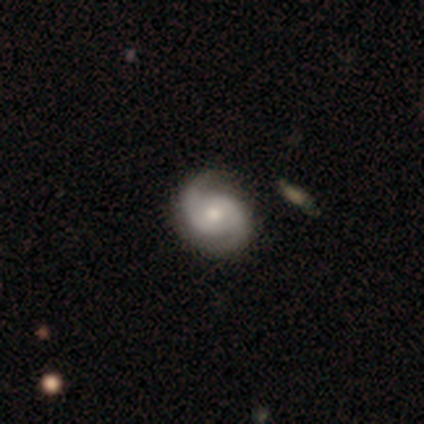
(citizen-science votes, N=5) A featured or disk galaxy (100%) with no bar (75%), 2 (75%) medium (100%) spiral arms (100%) and a moderate central bulge (50%, tied with small).

Vote fractions:
- Smooth or featured? featured or disk: 100% / smooth: 0% / star or artifact: 0%
- Edge-on disk? no: 80% / yes: 20%
- Bar? no: 75% / weak: 25% / strong: 0%
- Spiral arms? yes: 100% / no: 0%
- Spiral winding? medium: 100% / tight: 0% / loose: 0%
- Spiral arm count? 2: 75% / can't tell: 25% / 1: 0% / 3: 0% / 4: 0% / more than 4: 0%
- Bulge size? moderate: 50% (tied) / small: 50% (tied) / dominant: 0% / large: 0% / none: 0%
- Merging? none: 80% / major disturbance: 20% / minor disturbance: 0% / merger: 0%